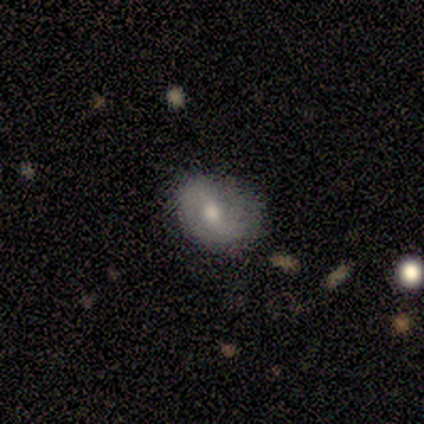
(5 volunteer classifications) Q: Smooth or featured?
A: featured or disk (80%); runner-up: smooth (20%)
Q: Edge-on disk?
A: no (100%)
Q: Bar?
A: weak (50%); runner-up: strong (25%)
Q: Spiral arms?
A: yes (50%); tied with: no (50%)
Q: Spiral winding?
A: medium (100%)
Q: Spiral arm count?
A: 2 (100%)
Q: Bulge size?
A: moderate (75%); runner-up: small (25%)
Q: Merging?
A: minor disturbance (60%); runner-up: none (20%)